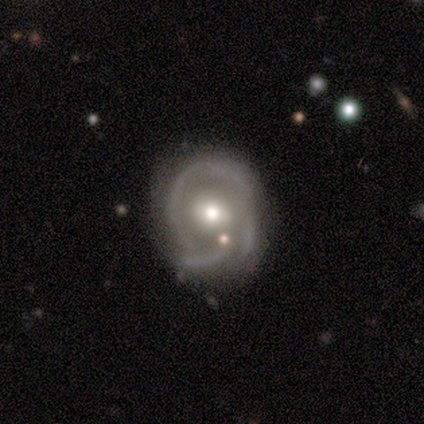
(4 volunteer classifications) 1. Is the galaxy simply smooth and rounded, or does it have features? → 75% featured or disk, 25% smooth, 0% star or artifact.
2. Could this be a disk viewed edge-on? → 100% no, 0% yes.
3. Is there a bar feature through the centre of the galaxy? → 33% strong (tied), 33% weak (tied), 33% no (tied).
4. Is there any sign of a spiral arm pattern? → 100% yes, 0% no.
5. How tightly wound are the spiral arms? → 33% tight (tied), 33% medium (tied), 33% loose (tied).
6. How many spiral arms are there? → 67% 3, 33% can't tell, 0% 1, 0% 2, 0% 4, 0% more than 4.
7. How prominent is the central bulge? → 100% moderate, 0% dominant, 0% large, 0% small, 0% none.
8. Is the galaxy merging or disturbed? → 50% none, 25% minor disturbance, 25% major disturbance, 0% merger.